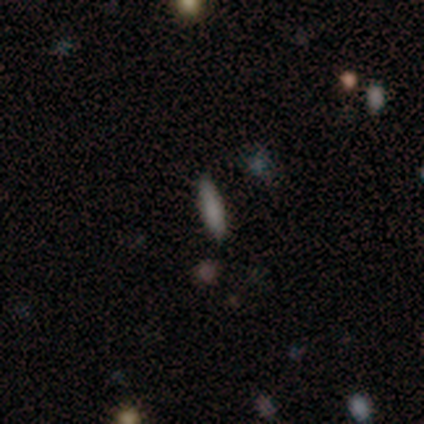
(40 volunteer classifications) Morphology: type=smooth (75%); roundness=cigar-shaped (77%); merging=none (95%).